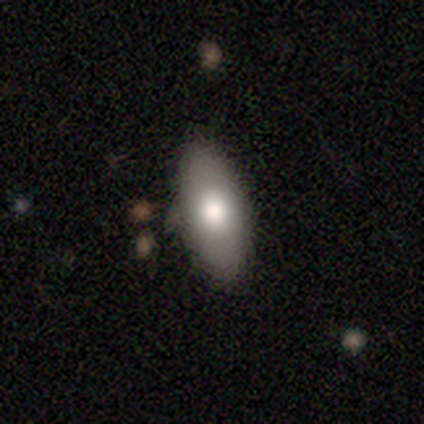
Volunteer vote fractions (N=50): This appears to be a smooth galaxy with no disk features (78%) that is in between round and cigar-shaped (82%). Merging: none (79%).